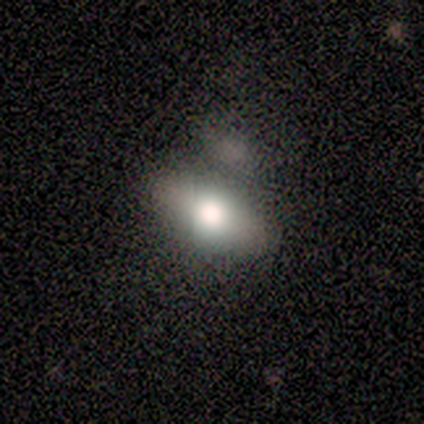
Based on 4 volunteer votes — smooth 100%, featured or disk 0%, star or artifact 0%. Down the decision tree: how rounded — in between (50%); merging — merger (75%).